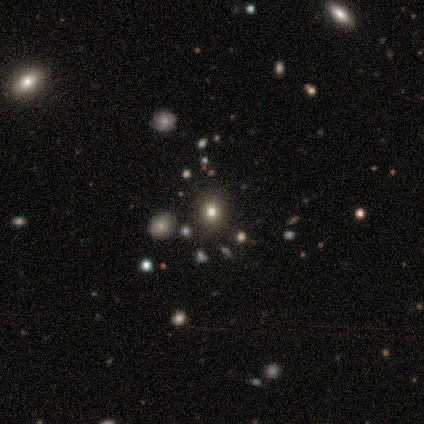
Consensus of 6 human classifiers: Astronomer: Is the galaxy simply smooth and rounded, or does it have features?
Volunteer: star or artifact — 67%.